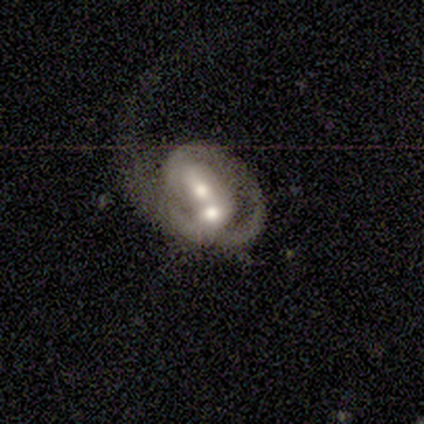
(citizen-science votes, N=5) Smooth or featured? 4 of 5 (80%) said featured or disk. Edge-on disk? 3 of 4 (75%) said no. Bar? 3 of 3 (100%) said no. Spiral arms? 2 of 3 (67%) said yes. Spiral winding? 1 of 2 (50%, tied with loose) said medium. Spiral arm count? 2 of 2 (100%) said can't tell. Bulge size? 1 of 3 (33%, tied with moderate and none) said large. Merging? 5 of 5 (100%) said merger.